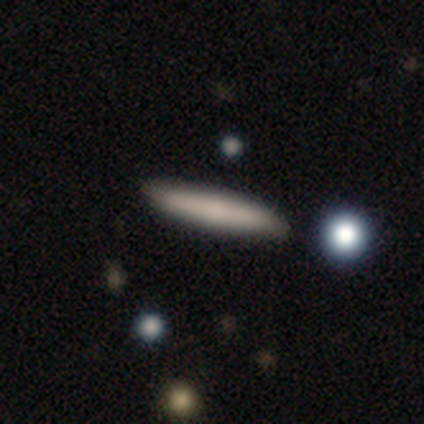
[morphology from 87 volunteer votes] Q: Smooth or featured?
A: smooth (85%); runner-up: featured or disk (13%)
Q: How rounded?
A: cigar-shaped (96%); runner-up: in between (4%)
Q: Merging?
A: none (86%); runner-up: minor disturbance (11%)